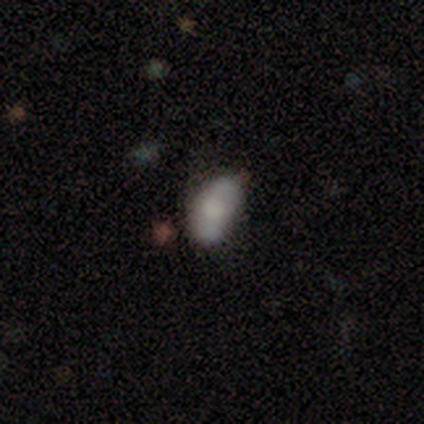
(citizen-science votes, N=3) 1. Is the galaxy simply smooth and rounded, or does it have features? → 33% smooth (tied), 33% featured or disk (tied), 33% star or artifact (tied).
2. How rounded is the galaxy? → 100% in between, 0% round, 0% cigar-shaped.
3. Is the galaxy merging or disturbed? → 50% minor disturbance (tied), 50% merger (tied), 0% none, 0% major disturbance.